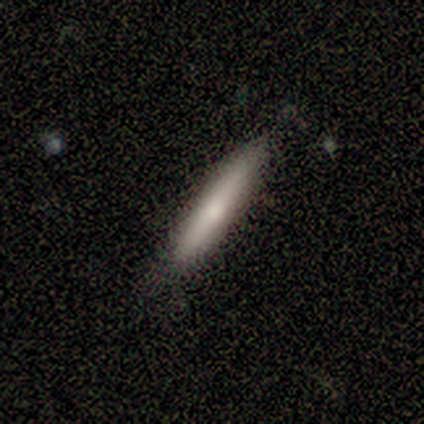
Smooth or featured? featured or disk (57%)
Edge-on disk? yes (100%)
Edge-on bulge? none (50%, tied with rounded)
Merging? none (71%)